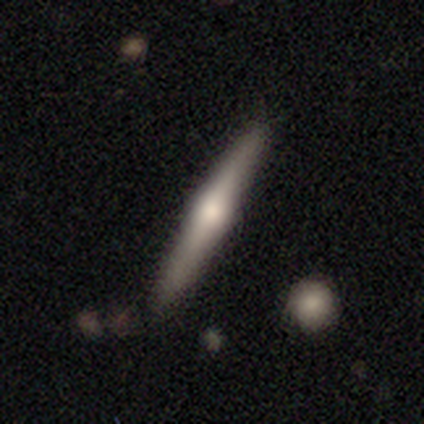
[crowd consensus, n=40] This appears to be a featured or disk galaxy (62%) viewed edge-on (88%) with a rounded central bulge (86%). Merging: none (82%).